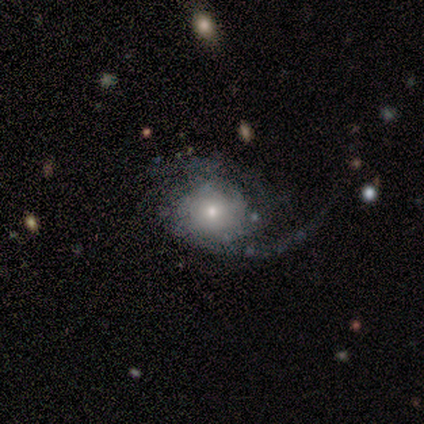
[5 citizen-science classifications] A featured or disk galaxy (100%) with no bar (80%), 2 (60%) tight (40%, tied with medium) spiral arms (100%) and a moderate central bulge (80%).

Vote fractions:
- Smooth or featured? featured or disk: 100% / smooth: 0% / star or artifact: 0%
- Edge-on disk? no: 100% / yes: 0%
- Bar? no: 80% / weak: 20% / strong: 0%
- Spiral arms? yes: 100% / no: 0%
- Spiral winding? tight: 40% (tied) / medium: 40% (tied) / loose: 20%
- Spiral arm count? 2: 60% / can't tell: 40% / 1: 0% / 3: 0% / 4: 0% / more than 4: 0%
- Bulge size? moderate: 80% / large: 20% / dominant: 0% / small: 0% / none: 0%
- Merging? major disturbance: 60% / none: 20% / minor disturbance: 20% / merger: 0%